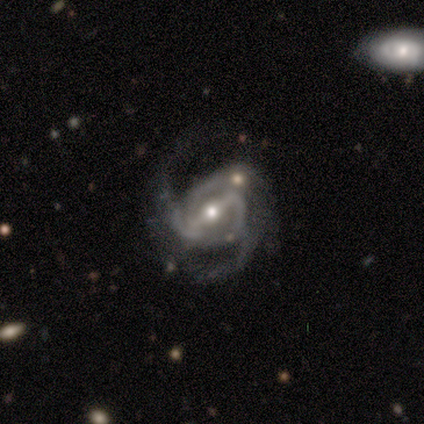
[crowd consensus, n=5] smooth_or_featured: featured or disk (p=1.00)
disk_edge_on: no (p=0.80) [alt: yes p=0.20]
bar: strong (p=1.00)
has_spiral_arms: yes (p=1.00)
spiral_winding: medium (p=0.75) [alt: loose p=0.25]
spiral_arm_count: 3 (p=0.50) [alt: 2 p=0.25]
bulge_size: moderate (p=0.50) [tied with: small p=0.50]
merging: none (p=0.40) [tied with: major disturbance p=0.40]